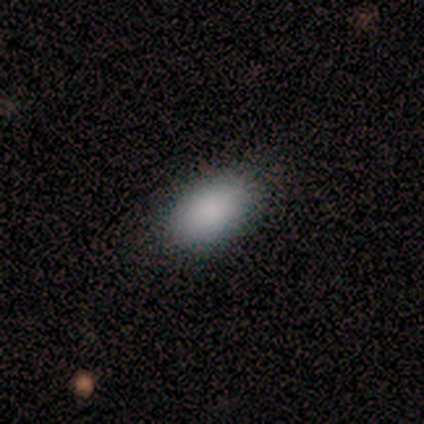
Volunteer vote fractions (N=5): smooth-or-featured: smooth: 100% | featured or disk: 0% | star or artifact: 0%
  how-rounded: in between: 100% | round: 0% | cigar-shaped: 0%
  merging: none: 60% | minor disturbance: 40% | major disturbance: 0% | merger: 0%